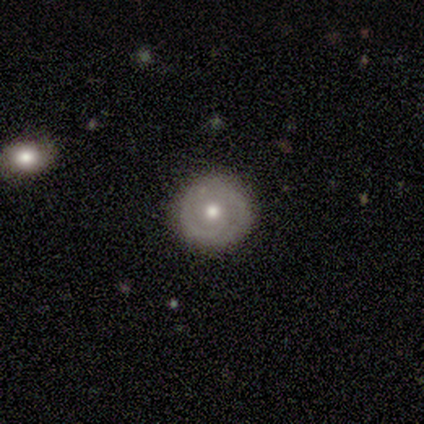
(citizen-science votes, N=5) smooth_or_featured: featured or disk (p=0.80) [alt: smooth p=0.20]
disk_edge_on: no (p=1.00)
bar: no (p=0.75) [alt: weak p=0.25]
has_spiral_arms: yes (p=1.00)
spiral_winding: tight (p=0.75) [alt: medium p=0.25]
spiral_arm_count: 2 (p=0.75) [alt: 1 p=0.25]
bulge_size: moderate (p=0.75) [alt: small p=0.25]
merging: none (p=1.00)